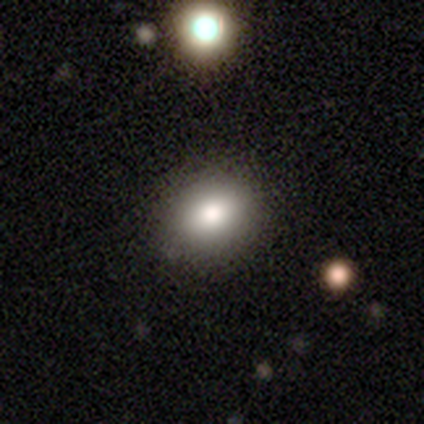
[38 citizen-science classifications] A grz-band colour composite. It shows a smooth galaxy with no disk features (82%) that is in between round and cigar-shaped (65%). Merging: none (94%).